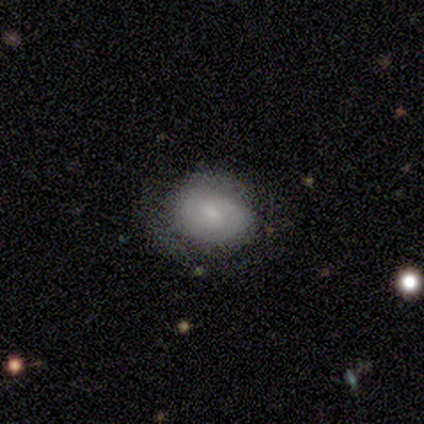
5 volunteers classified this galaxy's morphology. Smooth or featured: smooth — 100%
How rounded: round — 100%
Merging: minor disturbance — 60% (none — 40%)